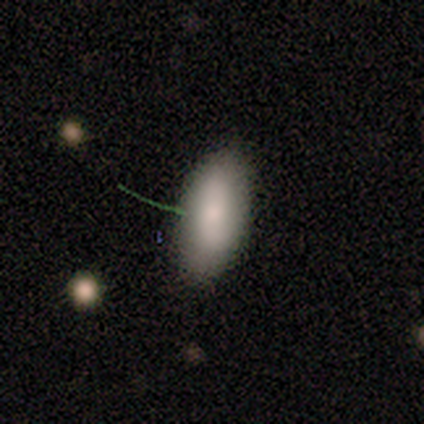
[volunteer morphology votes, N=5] Q: Smooth or featured?
A: smooth (100%)
Q: How rounded?
A: in between (100%)
Q: Merging?
A: none (80%); runner-up: merger (20%)